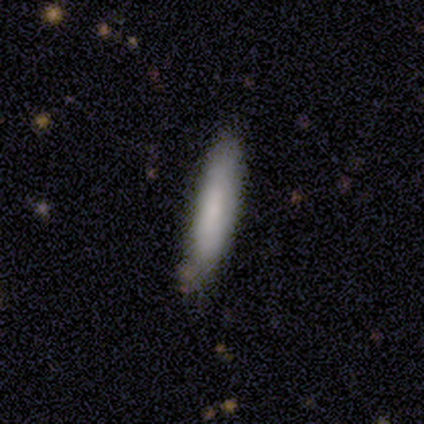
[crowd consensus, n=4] A smooth galaxy with no disk features (75%) that is cigar-shaped (100%).

Vote fractions:
- Smooth or featured? smooth: 75% / featured or disk: 25% / star or artifact: 0%
- How rounded? cigar-shaped: 100% / round: 0% / in between: 0%
- Merging? none: 75% / minor disturbance: 25% / major disturbance: 0% / merger: 0%